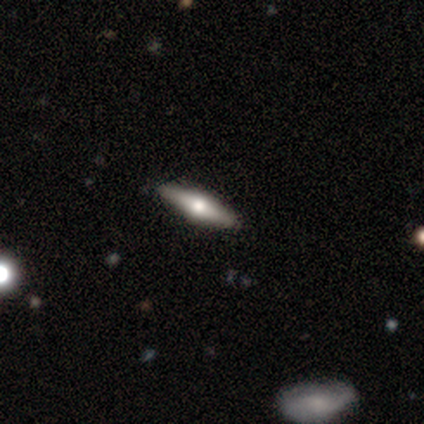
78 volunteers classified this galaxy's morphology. A featured or disk galaxy (64%) viewed edge-on (90%) with a rounded central bulge (96%).

Vote fractions:
- Smooth or featured? featured or disk: 64% / smooth: 32% / star or artifact: 4%
- Edge-on disk? yes: 90% / no: 10%
- Edge-on bulge? rounded: 96% / boxy: 4% / none: 0%
- Merging? none: 84% / minor disturbance: 9% / major disturbance: 5% / merger: 1%